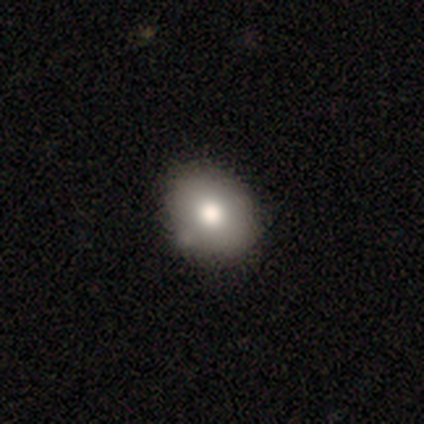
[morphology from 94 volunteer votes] Smooth or featured: smooth — 72% (featured or disk — 14%)
How rounded: round — 54% (in between — 46%)
Merging: none — 77% (minor disturbance — 17%)